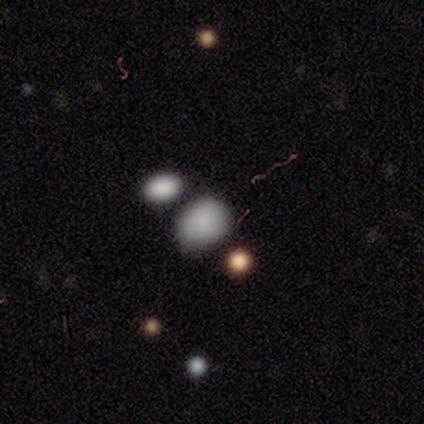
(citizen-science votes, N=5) Smooth or featured? 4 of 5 (80%) said smooth. How rounded? 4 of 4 (100%) said in between. Merging? 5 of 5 (100%) said none.